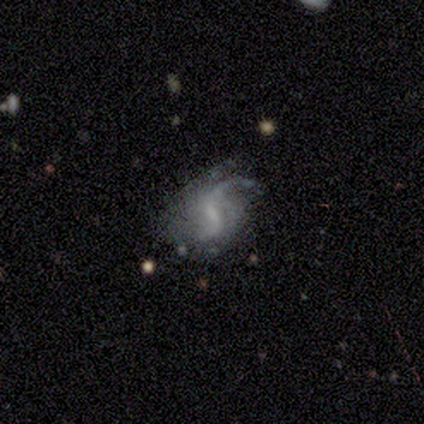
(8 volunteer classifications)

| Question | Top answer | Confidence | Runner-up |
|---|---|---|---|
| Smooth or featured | featured or disk | 75% | smooth (12%) |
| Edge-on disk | no | 100% | — |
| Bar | weak | 83% | no (17%) |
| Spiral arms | yes | 100% | — |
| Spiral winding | loose | 50% | medium (33%) |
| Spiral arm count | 1 | 50% | 2 (33%) |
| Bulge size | small | 50% | dominant (17%) |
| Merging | none | 57% | minor disturbance (29%) |